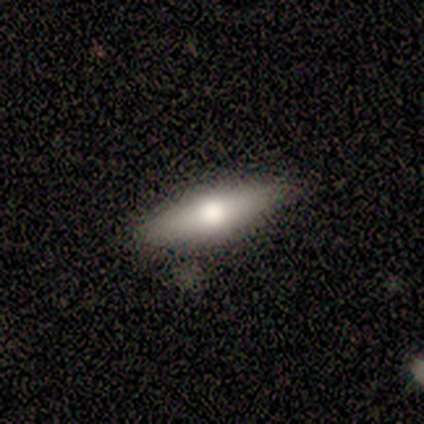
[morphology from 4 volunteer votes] Smooth or featured? 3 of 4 (75%) said smooth. How rounded? 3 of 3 (100%) said cigar-shaped. Merging? 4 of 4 (100%) said none.